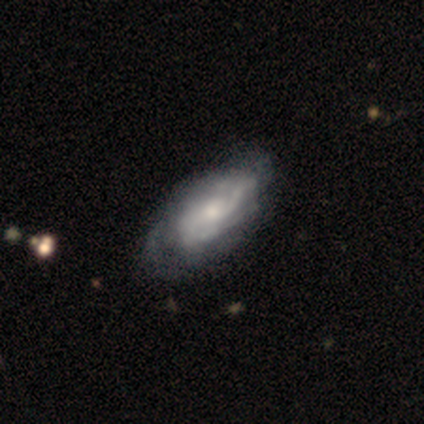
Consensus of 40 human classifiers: smooth-or-featured: featured or disk: 68% | smooth: 25% | star or artifact: 8%
  disk-edge-on: no: 81% | yes: 19%
    bar: no: 82% | weak: 14% | strong: 5%
    has-spiral-arms: yes: 86% | no: 14%
      spiral-winding: tight: 53% | medium: 42% | loose: 5%
      spiral-arm-count: can't tell: 58% | 3: 16% | 2: 11% | 1: 5% | 4: 5% | more than 4: 5%
    bulge-size: moderate: 55% | small: 36% | large: 5% | none: 5% | dominant: 0%
  merging: none: 57% | minor disturbance: 24% | major disturbance: 16% | merger: 3%